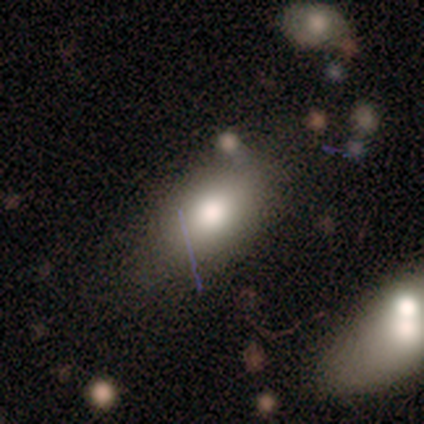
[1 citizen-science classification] smooth-or-featured: smooth: 100% | featured or disk: 0% | star or artifact: 0%
  how-rounded: in between: 100% | round: 0% | cigar-shaped: 0%
  merging: none: 100% | minor disturbance: 0% | major disturbance: 0% | merger: 0%